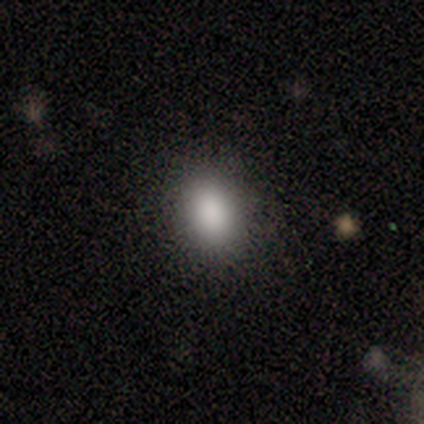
A smooth galaxy with no disk features (100%) that is in between round and cigar-shaped (60%). Merging: none (80%).